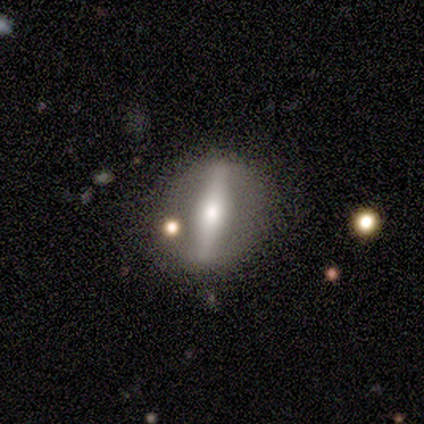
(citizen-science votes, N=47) This is likely a featured or disk galaxy (66%). It is possibly viewed edge-on (52%). Edge-on bulge: clearly rounded (100%). Merging: likely none (79%).